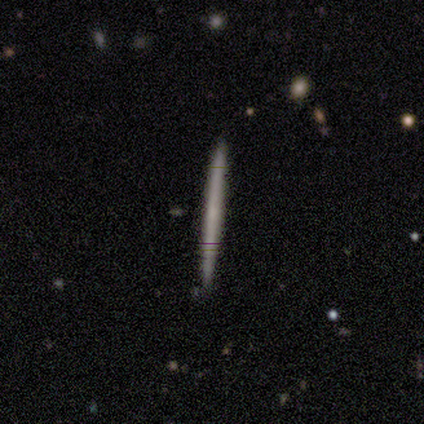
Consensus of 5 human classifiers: Volunteers were most divided on "smooth or featured": smooth: 80%, featured or disk: 20%, star or artifact: 0%. More confident: how rounded — cigar-shaped (100%); merging — none (100%).